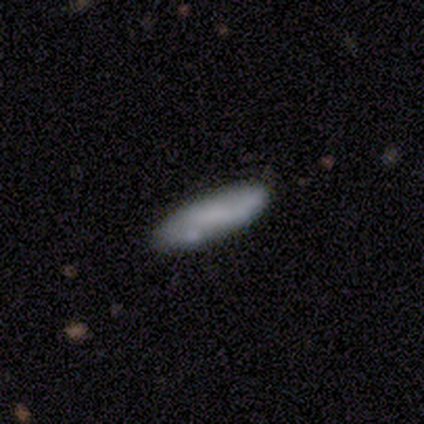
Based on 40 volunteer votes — smooth_or_featured: smooth (p=0.68) [alt: featured or disk p=0.30]
how_rounded: cigar-shaped (p=0.56) [alt: in between p=0.44]
merging: none (p=0.72) [alt: minor disturbance p=0.21]